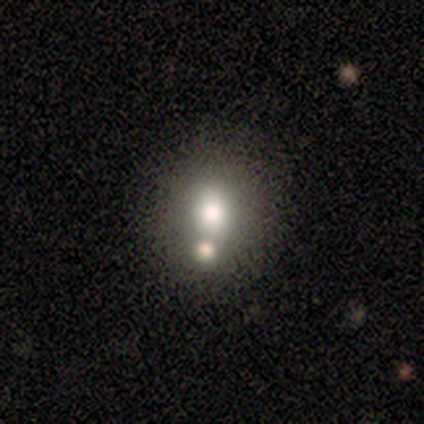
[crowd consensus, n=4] Q: Smooth or featured?
A: smooth (75%); runner-up: featured or disk (25%)
Q: How rounded?
A: in between (67%); runner-up: round (33%)
Q: Merging?
A: none (50%); tied with: merger (50%)